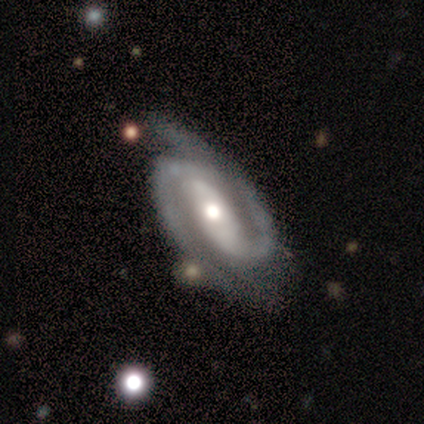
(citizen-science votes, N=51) A featured or disk galaxy (86%) with a strong bar (48%), 2 (100%) tight (52%) spiral arms (100%) and a moderate central bulge (69%). Merging: none (58%).